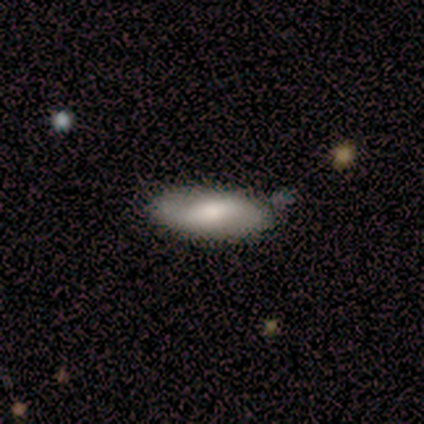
Q: Smooth or featured?
A: smooth (60%); runner-up: featured or disk (40%)
Q: How rounded?
A: in between (67%); runner-up: cigar-shaped (33%)
Q: Merging?
A: none (80%); runner-up: minor disturbance (20%)